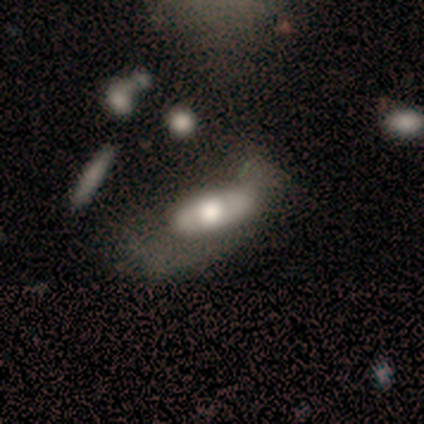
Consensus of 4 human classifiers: A featured or disk galaxy (75%) with a weak bar (67%), 2 (50%, tied with can't tell) tight (50%, tied with medium) spiral arms (67%) and a dominant central bulge (33%, tied with large and moderate). Merging: major disturbance (75%).